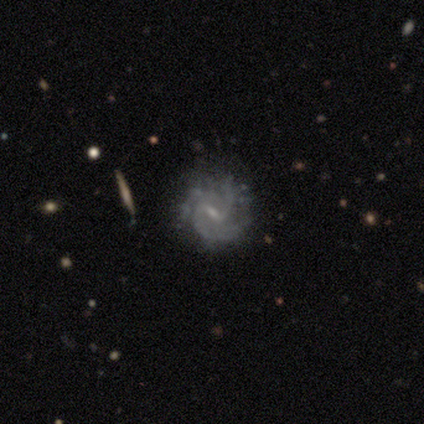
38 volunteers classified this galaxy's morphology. Smooth or featured: featured or disk — 82% (smooth — 11%)
Edge-on disk: no — 97% (yes — 3%)
Bar: weak — 77% (no — 13%)
Spiral arms: yes — 90% (no — 10%)
Spiral winding: medium — 44% (tight — 41%)
Spiral arm count: 2 — 37% (3 — 30%)
Bulge size: small — 73% (moderate — 20%)
Merging: none — 77% (minor disturbance — 20%)